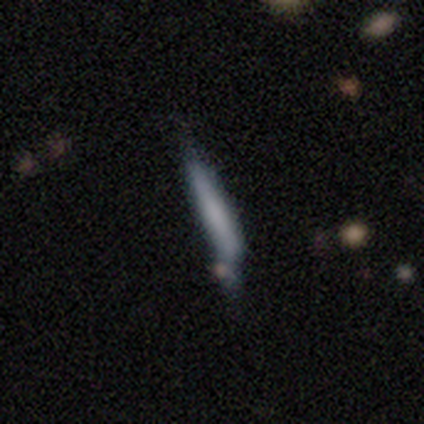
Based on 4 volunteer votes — A smooth galaxy with no disk features (75%) that is cigar-shaped (100%).

Vote fractions:
- Smooth or featured? smooth: 75% / star or artifact: 25% / featured or disk: 0%
- How rounded? cigar-shaped: 100% / round: 0% / in between: 0%
- Merging? none: 33% (tied) / minor disturbance: 33% (tied) / major disturbance: 33% (tied) / merger: 0%